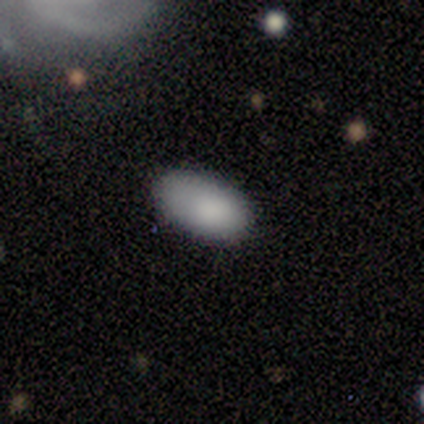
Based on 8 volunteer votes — Smooth or featured: smooth — 100%
How rounded: in between — 100%
Merging: none — 100%